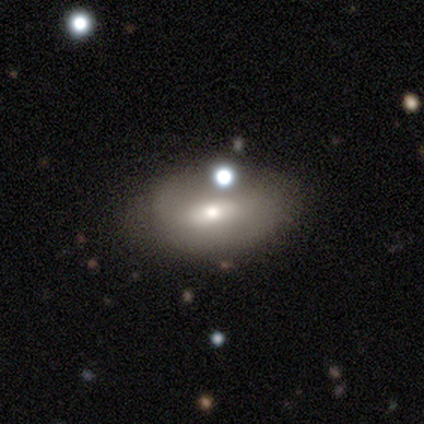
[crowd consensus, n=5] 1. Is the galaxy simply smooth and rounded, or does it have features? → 60% featured or disk, 40% smooth, 0% star or artifact.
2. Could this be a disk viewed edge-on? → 100% no, 0% yes.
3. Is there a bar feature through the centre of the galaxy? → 67% no, 33% strong, 0% weak.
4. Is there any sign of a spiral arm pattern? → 67% no, 33% yes.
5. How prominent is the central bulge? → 67% small, 33% large, 0% dominant, 0% moderate, 0% none.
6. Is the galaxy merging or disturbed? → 60% none, 20% minor disturbance, 20% merger, 0% major disturbance.